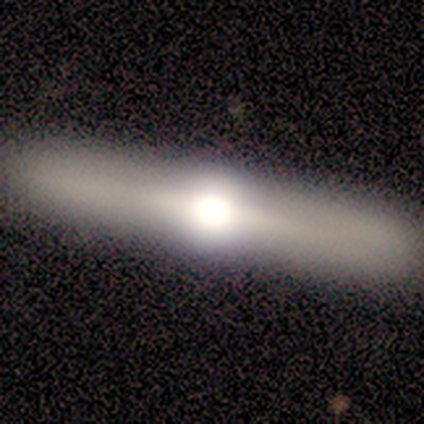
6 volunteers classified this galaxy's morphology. Q: Smooth or featured?
A: featured or disk (67%); runner-up: smooth (33%)
Q: Edge-on disk?
A: yes (75%); runner-up: no (25%)
Q: Edge-on bulge?
A: rounded (100%)
Q: Merging?
A: none (100%)